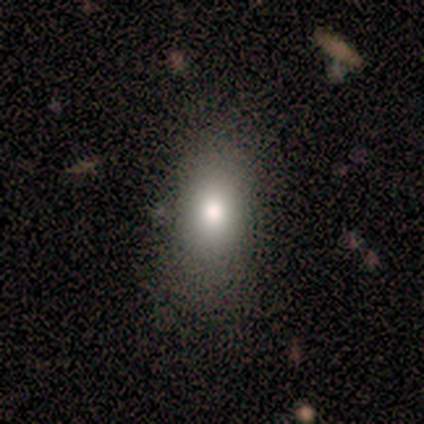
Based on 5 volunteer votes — Morphology: type=smooth (100%); roundness=in between (60%); merging=minor disturbance (60%).